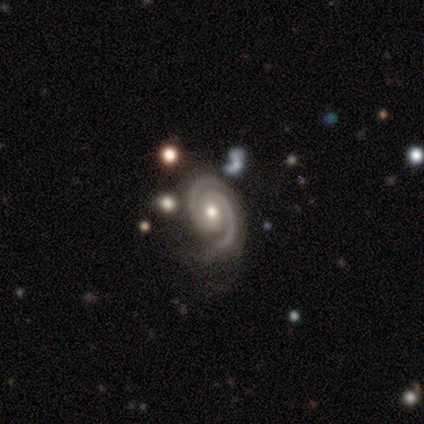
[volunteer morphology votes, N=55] featured or disk 95%, star or artifact 5%, smooth 0%. Down the decision tree: edge-on disk — no (100%); bar — no (63%); spiral arms — yes (98%); spiral arm count — 2 (94%); spiral winding — tight (67%); bulge size — moderate (83%); merging — none (62%).